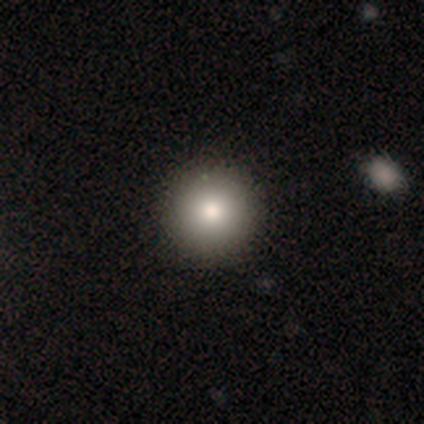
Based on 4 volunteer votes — Smooth or featured: smooth — 75% (featured or disk — 25%)
How rounded: round — 100%
Merging: none — 100%